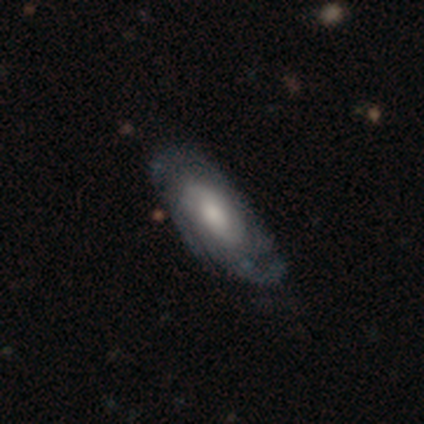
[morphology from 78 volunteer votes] Smooth or featured? 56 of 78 (72%) said featured or disk. Edge-on disk? 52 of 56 (93%) said no. Bar? 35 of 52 (67%) said no. Spiral arms? 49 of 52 (94%) said yes. Spiral winding? 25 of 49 (51%) said tight. Spiral arm count? 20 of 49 (41%) said can't tell. Bulge size? 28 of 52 (54%) said moderate. Merging? 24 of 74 (32%) said none.